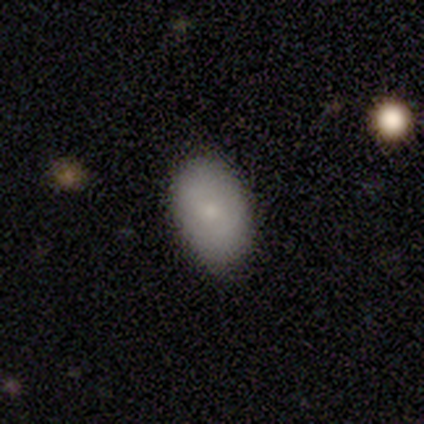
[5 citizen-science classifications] Smooth or featured? 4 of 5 (80%) said smooth. How rounded? 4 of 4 (100%) said in between. Merging? 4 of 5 (80%) said none.